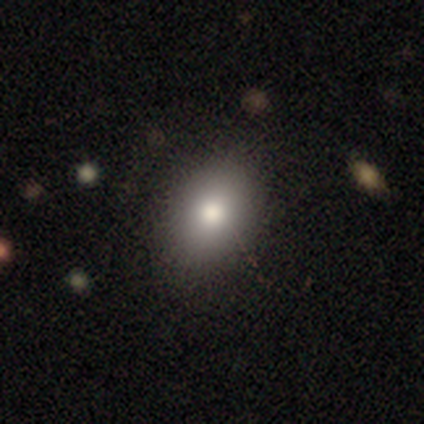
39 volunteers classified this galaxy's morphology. Smooth or featured? smooth (74%)
How rounded? in between (69%)
Merging? none (88%)